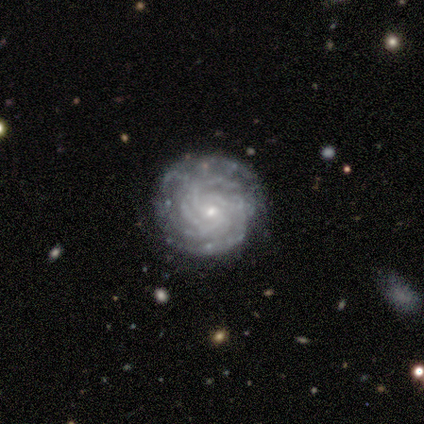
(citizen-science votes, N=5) Smooth or featured?
  - featured or disk: 80% *
  - star or artifact: 20%
  - smooth: 0%
Edge-on disk?
  - no: 100% *
  - yes: 0%
Bar?
  - no: 75% *
  - weak: 25%
  - strong: 0%
Spiral arms?
  - yes: 100% *
  - no: 0%
Spiral winding?
  - tight: 75% *
  - medium: 25%
  - loose: 0%
Spiral arm count?
  - more than 4: 75% *
  - 4: 25%
  - 1: 0%
  - 2: 0%
  - 3: 0%
  - can't tell: 0%
Bulge size?
  - small: 100% *
  - dominant: 0%
  - large: 0%
  - moderate: 0%
  - none: 0%
Merging?
  - none: 75% *
  - minor disturbance: 25%
  - major disturbance: 0%
  - merger: 0%